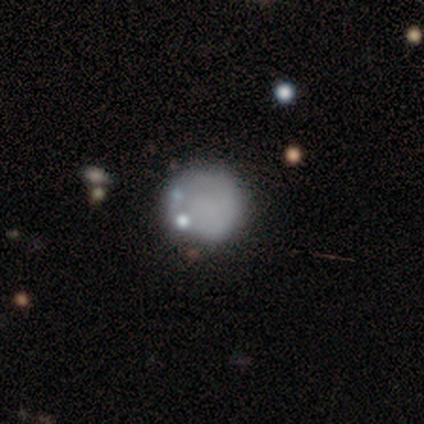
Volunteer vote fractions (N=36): Smooth or featured? 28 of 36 (78%) said smooth. How rounded? 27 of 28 (96%) said round. Merging? 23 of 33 (70%) said none.